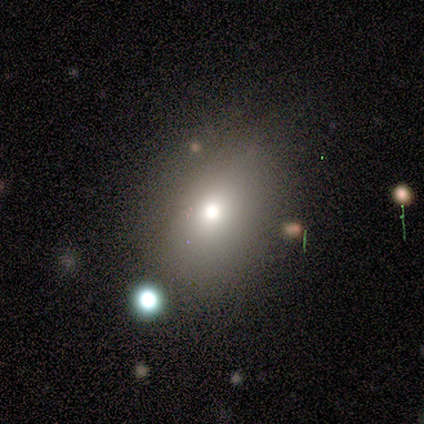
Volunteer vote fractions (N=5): Overall: smooth (40%, tied with star or artifact). How rounded: round (50%, tied with in between). Merging: none (67%; major disturbance 33%).